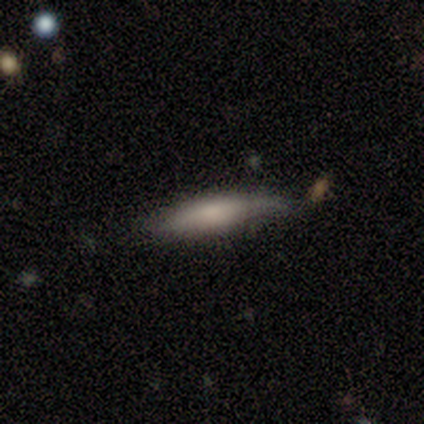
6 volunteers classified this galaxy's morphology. smooth 67%, featured or disk 33%, star or artifact 0%. Down the decision tree: how rounded — in between (50%, tied with cigar-shaped); merging — none (67%).